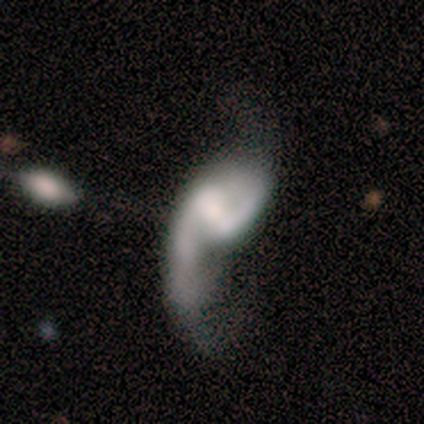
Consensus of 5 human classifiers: Volunteers were most divided on "merging": major disturbance: 40%, none: 20%, minor disturbance: 20%, merger: 20%. More confident: edge-on disk — no (100%); spiral winding — loose (100%); spiral arm count — 2 (100%); smooth or featured — featured or disk (80%); spiral arms — yes (75%); bar — no (50%); bulge size — none (50%).